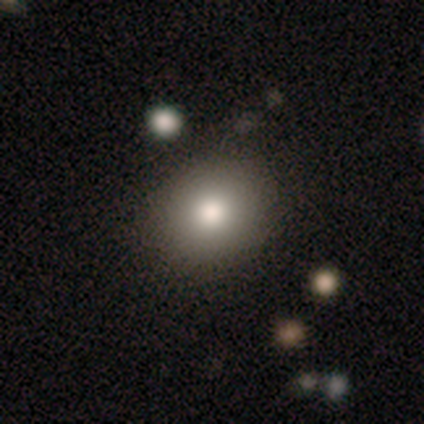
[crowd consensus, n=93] Smooth or featured?
  - smooth: 90% *
  - star or artifact: 5%
  - featured or disk: 4%
How rounded?
  - round: 57% *
  - in between: 43%
  - cigar-shaped: 0%
Merging?
  - none: 83% *
  - minor disturbance: 12%
  - major disturbance: 3%
  - merger: 1%